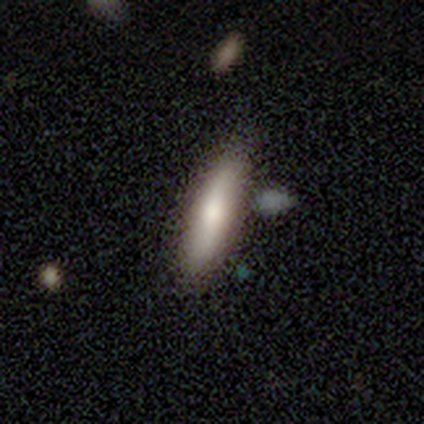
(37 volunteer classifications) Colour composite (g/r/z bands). It shows a smooth galaxy with no disk features (68%) that is cigar-shaped (84%). Merging: none (83%).